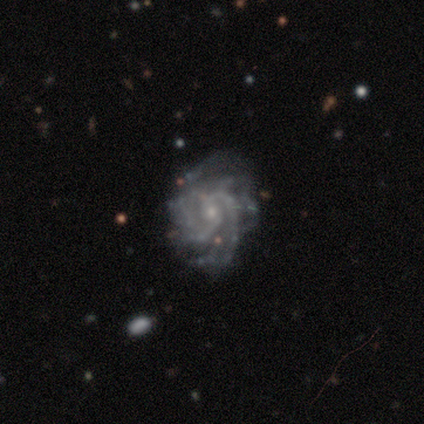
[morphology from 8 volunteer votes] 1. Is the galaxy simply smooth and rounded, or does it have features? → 100% featured or disk, 0% smooth, 0% star or artifact.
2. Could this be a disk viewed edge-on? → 100% no, 0% yes.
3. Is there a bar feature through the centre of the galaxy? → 88% no, 12% weak, 0% strong.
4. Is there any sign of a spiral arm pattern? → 100% yes, 0% no.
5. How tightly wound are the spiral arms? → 50% medium, 38% tight, 12% loose.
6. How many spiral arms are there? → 50% 2, 25% can't tell, 12% 3, 12% more than 4, 0% 1, 0% 4.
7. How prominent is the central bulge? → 75% small, 12% moderate, 12% none, 0% dominant, 0% large.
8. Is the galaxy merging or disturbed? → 75% none, 12% minor disturbance, 12% major disturbance, 0% merger.